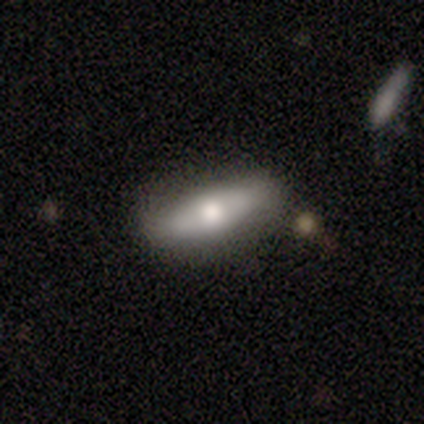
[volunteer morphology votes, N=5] A smooth galaxy with no disk features (80%) that is in between round and cigar-shaped (75%). Merging: none (80%).